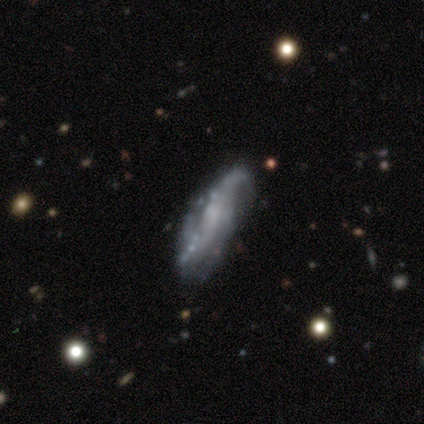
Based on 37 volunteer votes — smooth_or_featured: featured or disk (p=0.86) [alt: smooth p=0.11]
disk_edge_on: no (p=0.78) [alt: yes p=0.22]
bar: no (p=0.48) [alt: weak p=0.44]
has_spiral_arms: yes (p=0.88) [alt: no p=0.12]
spiral_winding: loose (p=0.73) [alt: medium p=0.27]
spiral_arm_count: 2 (p=0.77) [alt: 3 p=0.09]
bulge_size: none (p=0.56) [alt: small p=0.28]
merging: none (p=0.75) [alt: minor disturbance p=0.19]